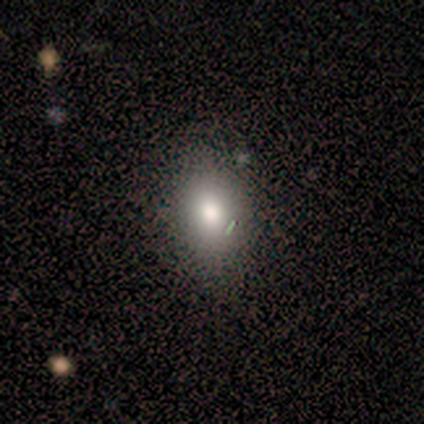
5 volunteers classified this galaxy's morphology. Smooth or featured? 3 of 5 (60%) said smooth. How rounded? 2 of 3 (67%) said in between. Merging? 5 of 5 (100%) said none.